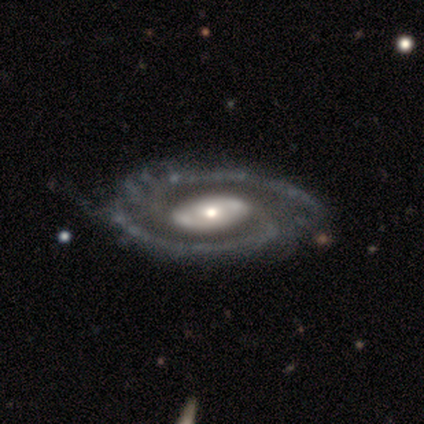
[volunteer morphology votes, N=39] Q: Smooth or featured?
A: featured or disk (87%); runner-up: smooth (10%)
Q: Edge-on disk?
A: no (94%); runner-up: yes (6%)
Q: Bar?
A: no (59%); runner-up: weak (22%)
Q: Spiral arms?
A: yes (84%); runner-up: no (16%)
Q: Spiral winding?
A: tight (44%); runner-up: medium (41%)
Q: Spiral arm count?
A: 2 (89%); runner-up: can't tell (7%)
Q: Bulge size?
A: moderate (47%); runner-up: small (34%)
Q: Merging?
A: none (42%); runner-up: minor disturbance (16%)